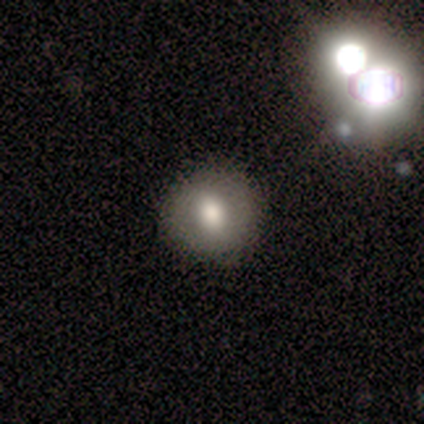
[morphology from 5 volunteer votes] A smooth galaxy with no disk features (80%) that is round (75%).

Vote fractions:
- Smooth or featured? smooth: 80% / star or artifact: 20% / featured or disk: 0%
- How rounded? round: 75% / in between: 25% / cigar-shaped: 0%
- Merging? none: 75% / minor disturbance: 25% / major disturbance: 0% / merger: 0%